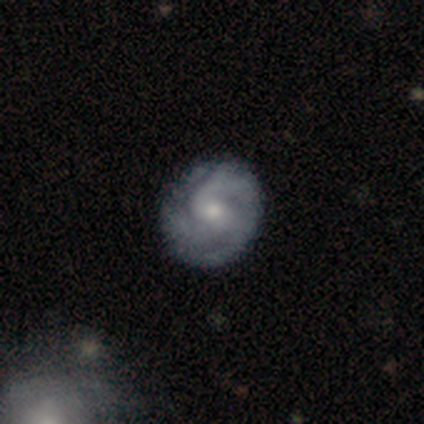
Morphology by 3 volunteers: smooth 67%, featured or disk 33%, star or artifact 0%. Down the decision tree: how rounded — round (100%); merging — none (100%).